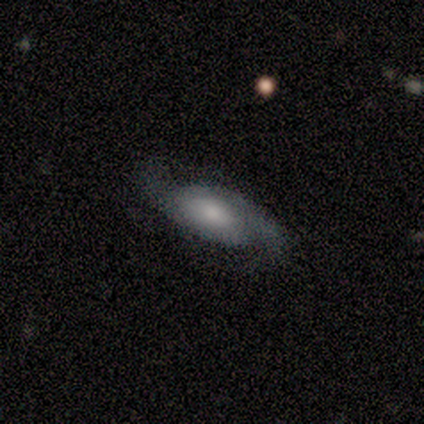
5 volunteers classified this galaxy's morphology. type=featured or disk (60%); edge-on=no (100%); bar=weak (67%); spiral arms=yes (100%); winding=medium (67%); arm count=2 (67%); bulge=moderate (67%); merging=none (75%).